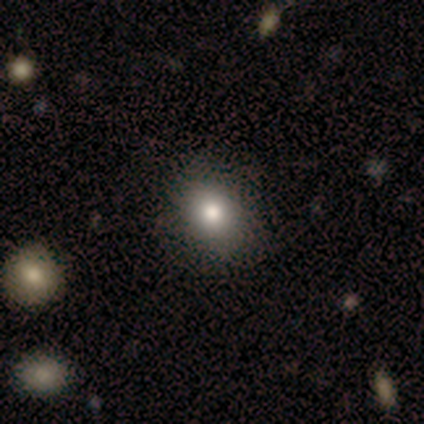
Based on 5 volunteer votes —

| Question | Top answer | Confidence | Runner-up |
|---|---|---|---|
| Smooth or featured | smooth | 100% | — |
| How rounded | round | 60% | in between (40%) |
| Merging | none | 80% | major disturbance (20%) |